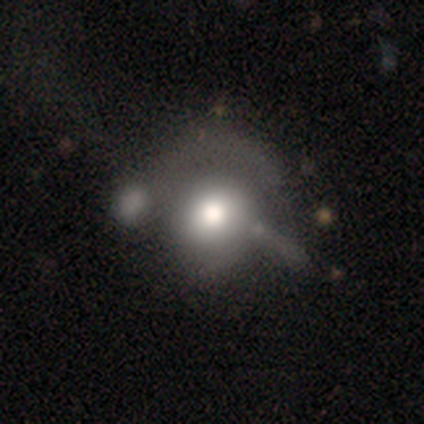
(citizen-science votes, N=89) A smooth galaxy with no disk features (57%) that is round (75%). Merging: minor disturbance (33%).